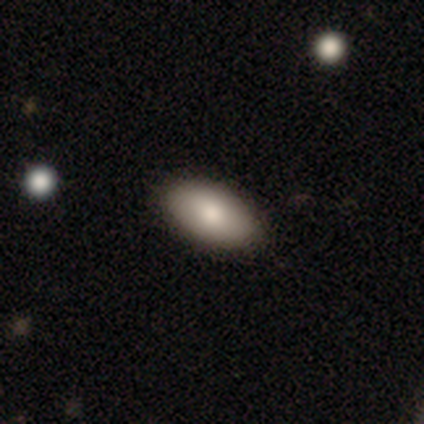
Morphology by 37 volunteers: A smooth galaxy with no disk features (84%) that is in between round and cigar-shaped (90%). Merging: none (94%).